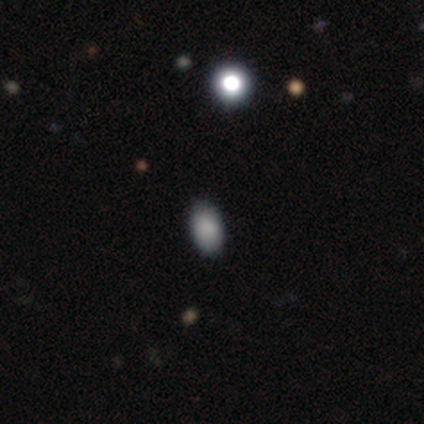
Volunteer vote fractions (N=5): Q: Smooth or featured?
A: smooth (60%); runner-up: featured or disk (40%)
Q: How rounded?
A: in between (100%)
Q: Merging?
A: none (100%)